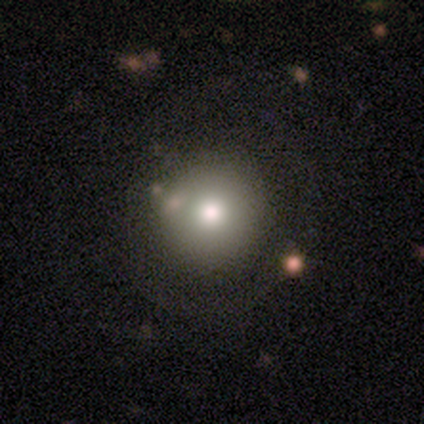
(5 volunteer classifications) Q: Smooth or featured?
A: smooth (100%)
Q: How rounded?
A: round (80%); runner-up: in between (20%)
Q: Merging?
A: none (100%)